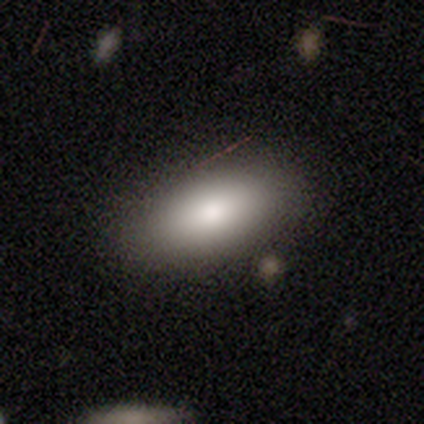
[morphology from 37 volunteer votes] Smooth or featured? 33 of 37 (89%) said smooth. How rounded? 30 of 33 (91%) said in between. Merging? 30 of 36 (83%) said none.